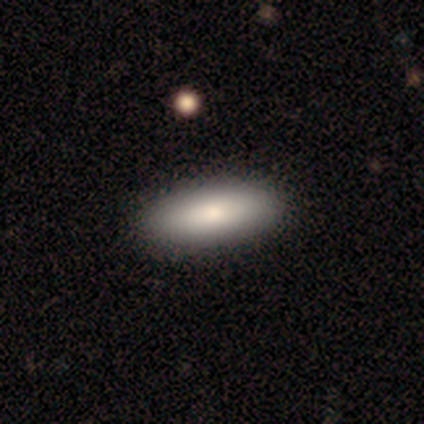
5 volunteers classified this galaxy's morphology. type=smooth (80%); roundness=in between (100%); merging=none (80%).